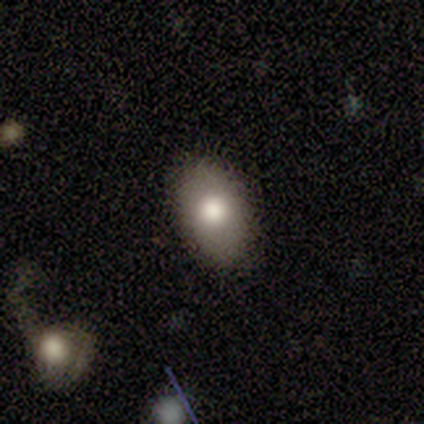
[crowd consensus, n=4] Q: Smooth or featured?
A: smooth (75%); runner-up: featured or disk (25%)
Q: How rounded?
A: in between (100%)
Q: Merging?
A: none (100%)